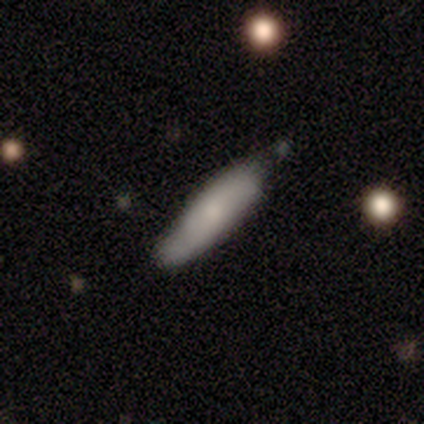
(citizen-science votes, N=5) A smooth galaxy with no disk features (80%) that is cigar-shaped (75%).

Vote fractions:
- Smooth or featured? smooth: 80% / featured or disk: 20% / star or artifact: 0%
- How rounded? cigar-shaped: 75% / in between: 25% / round: 0%
- Merging? none: 40% (tied) / minor disturbance: 40% (tied) / major disturbance: 20% / merger: 0%